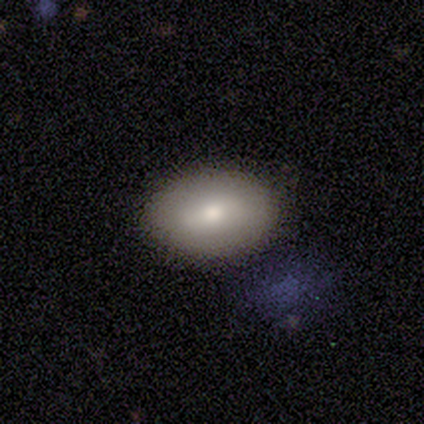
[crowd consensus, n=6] Smooth or featured? 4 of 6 (67%) said smooth. How rounded? 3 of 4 (75%) said in between. Merging? 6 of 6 (100%) said none.